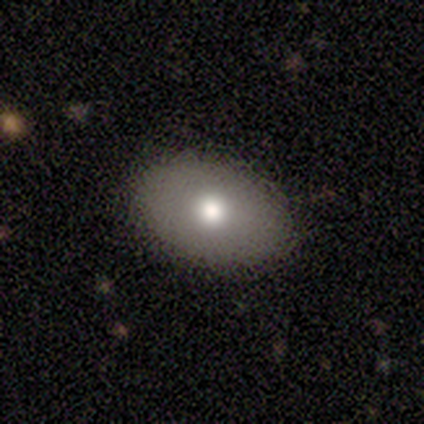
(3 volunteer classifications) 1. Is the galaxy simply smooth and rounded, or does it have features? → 100% smooth, 0% featured or disk, 0% star or artifact.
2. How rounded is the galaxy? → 100% in between, 0% round, 0% cigar-shaped.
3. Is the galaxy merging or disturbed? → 67% none, 33% minor disturbance, 0% major disturbance, 0% merger.